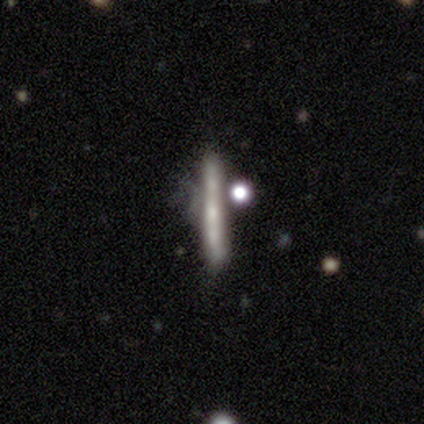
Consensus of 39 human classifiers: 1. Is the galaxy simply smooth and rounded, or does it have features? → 56% featured or disk, 36% smooth, 8% star or artifact.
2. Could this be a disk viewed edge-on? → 86% yes, 14% no.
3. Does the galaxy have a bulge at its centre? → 53% none, 42% rounded, 5% boxy.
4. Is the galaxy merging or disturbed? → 50% none, 31% minor disturbance, 14% merger, 6% major disturbance.